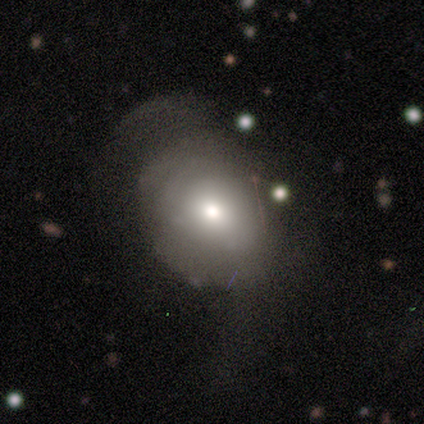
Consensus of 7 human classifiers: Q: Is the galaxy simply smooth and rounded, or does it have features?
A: smooth — 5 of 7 (71%).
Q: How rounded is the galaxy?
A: in between — 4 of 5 (80%).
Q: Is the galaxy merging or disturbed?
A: none — 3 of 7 (43%, tied with major disturbance).